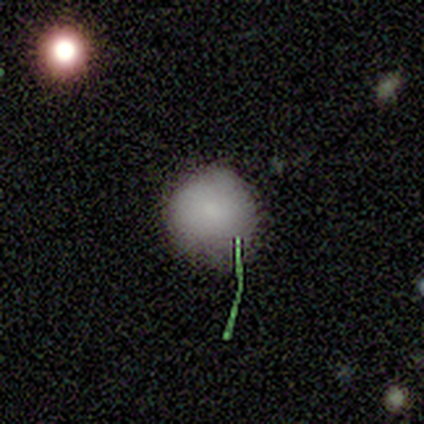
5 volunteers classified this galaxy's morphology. This appears to be a smooth galaxy with no disk features (60%) that is round (100%). Merging: none (100%).